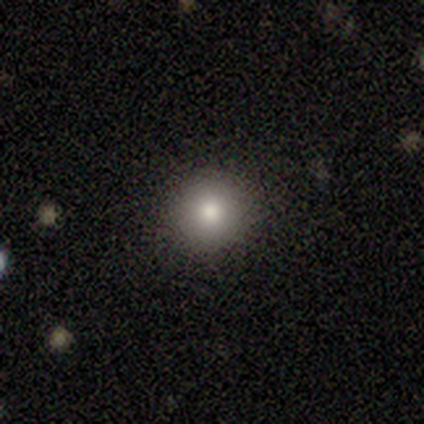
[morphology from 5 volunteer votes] Smooth or featured?
  - smooth: 100% *
  - featured or disk: 0%
  - star or artifact: 0%
How rounded?
  - round: 80% *
  - in between: 20%
  - cigar-shaped: 0%
Merging?
  - none: 80% *
  - minor disturbance: 20%
  - major disturbance: 0%
  - merger: 0%